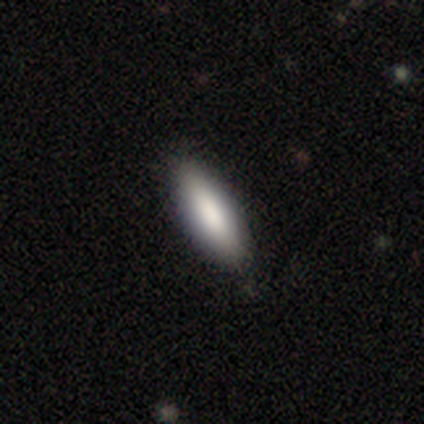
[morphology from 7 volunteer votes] Smooth or featured: smooth — 100%
How rounded: cigar-shaped — 57% (in between — 43%)
Merging: none — 100%